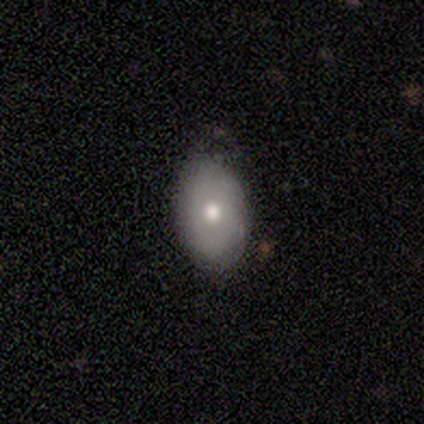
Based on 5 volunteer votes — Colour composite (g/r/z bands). It shows a smooth galaxy with no disk features (60%) that is in between round and cigar-shaped (100%). Merging: none (50%, tied with minor disturbance).